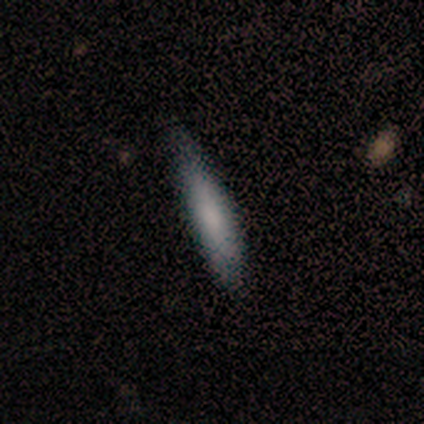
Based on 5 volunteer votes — Smooth or featured? smooth (80%)
How rounded? cigar-shaped (75%)
Merging? none (80%)